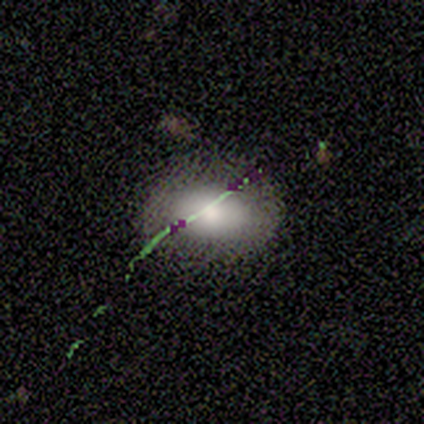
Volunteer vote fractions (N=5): This is likely a smooth galaxy (60%). How rounded: clearly in between (100%). Merging: clearly none (100%).